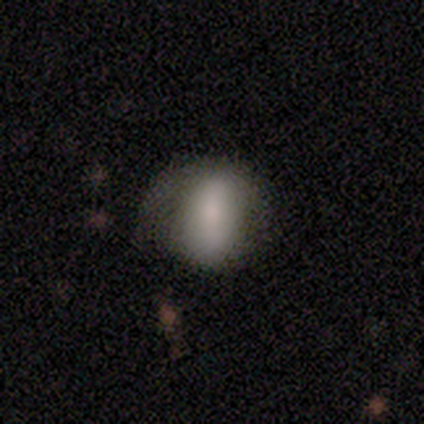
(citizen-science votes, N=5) A featured or disk galaxy (100%) with no bar (75%), no spiral arms (75%) and a moderate central bulge (50%, tied with small). Merging: none (40%, tied with minor disturbance).